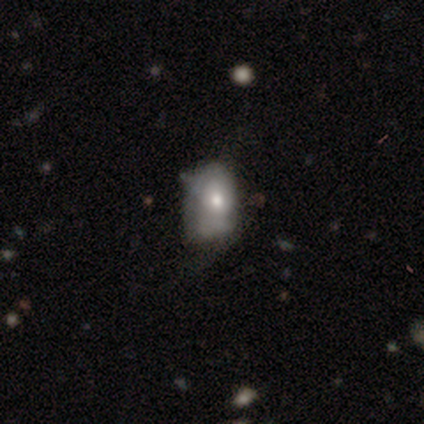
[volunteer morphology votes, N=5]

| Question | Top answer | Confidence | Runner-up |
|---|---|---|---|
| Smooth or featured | smooth | 40% | tied: featured or disk (40%) |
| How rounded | in between | 100% | — |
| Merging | minor disturbance | 75% | none (25%) |